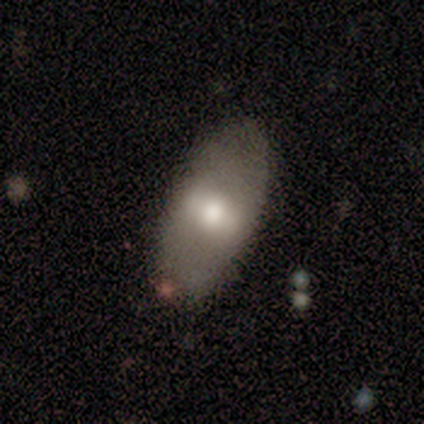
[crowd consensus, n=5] Overall: featured or disk (60%; smooth 40%). Edge-on disk: no (100%). Bar: weak (67%; strong 33%). Spiral arms: no (100%). Bulge size: moderate (67%; large 33%). Merging: none (100%).